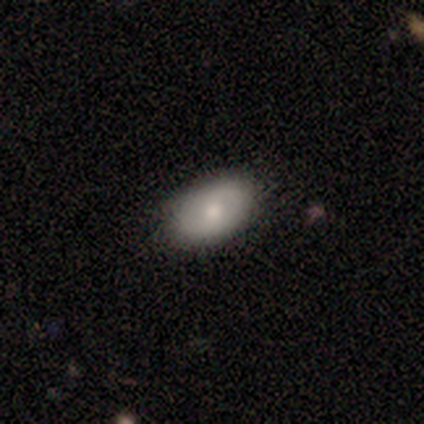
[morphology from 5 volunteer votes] This is clearly a smooth galaxy (100%). How rounded: clearly in between (100%). Merging: clearly none (100%).